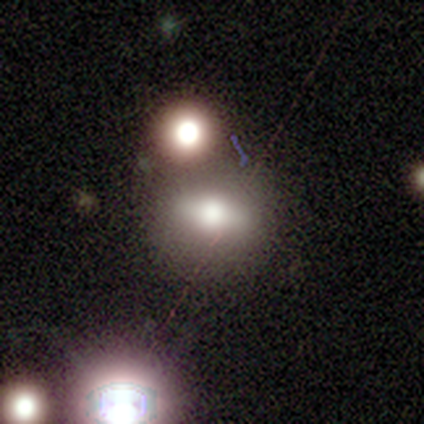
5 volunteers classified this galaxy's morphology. smooth-or-featured: smooth: 40% (tied) | star or artifact: 40% (tied) | featured or disk: 20%
  how-rounded: in between: 50% (tied) | cigar-shaped: 50% (tied) | round: 0%
  merging: none: 67% | merger: 33% | minor disturbance: 0% | major disturbance: 0%